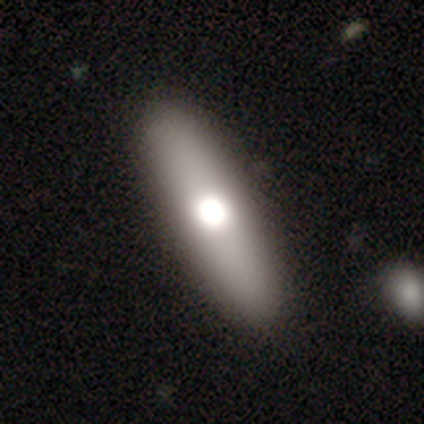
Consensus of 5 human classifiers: smooth_or_featured: featured or disk (p=0.60) [alt: smooth p=0.40]
disk_edge_on: no (p=0.67) [alt: yes p=0.33]
bar: no (p=1.00)
has_spiral_arms: no (p=1.00)
bulge_size: large (p=0.50) [tied with: moderate p=0.50]
merging: none (p=1.00)